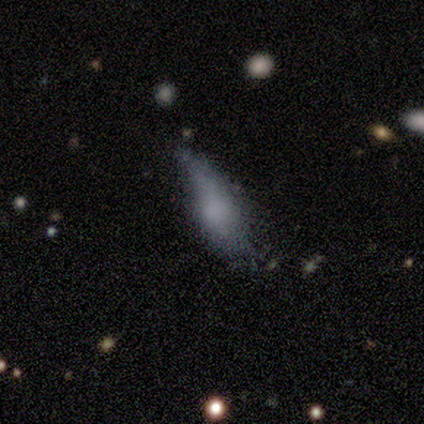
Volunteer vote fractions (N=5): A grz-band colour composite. It shows a smooth galaxy with no disk features (80%) that is in between round and cigar-shaped (75%). Merging: minor disturbance (60%).